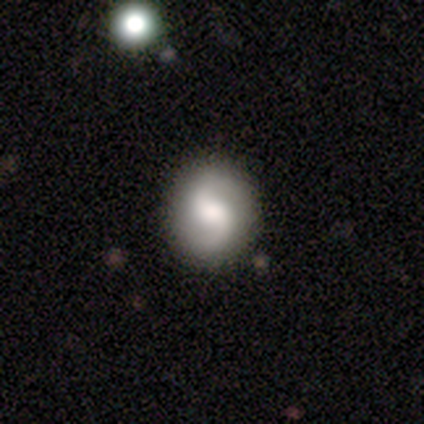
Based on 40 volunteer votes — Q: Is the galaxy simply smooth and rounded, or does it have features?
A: featured or disk — 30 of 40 (75%).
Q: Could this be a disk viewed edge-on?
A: no — 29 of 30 (97%).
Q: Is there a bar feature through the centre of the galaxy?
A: weak — 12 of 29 (41%).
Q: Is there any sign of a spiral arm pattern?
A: yes — 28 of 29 (97%).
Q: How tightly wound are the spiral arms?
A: loose — 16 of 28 (57%).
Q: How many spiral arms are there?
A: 2 — 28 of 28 (100%).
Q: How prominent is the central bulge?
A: moderate — 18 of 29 (62%).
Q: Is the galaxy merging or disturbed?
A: none — 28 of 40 (70%).